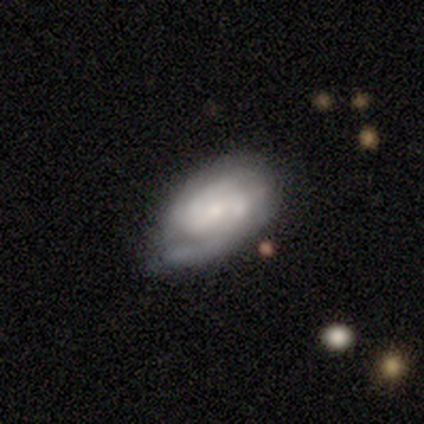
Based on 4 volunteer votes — Smooth or featured: featured or disk — 75% (smooth — 25%)
Edge-on disk: no — 100%
Bar: weak — 67% (no — 33%)
Spiral arms: yes — 100%
Spiral winding: tight — 33% (tied with medium — 33%; loose — 33%)
Spiral arm count: 2 — 67% (1 — 33%)
Bulge size: moderate — 67% (small — 33%)
Merging: none — 50% (minor disturbance — 25%)